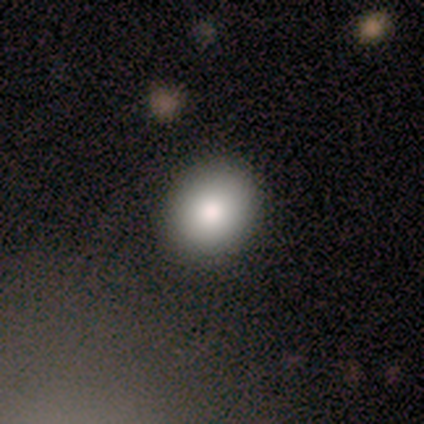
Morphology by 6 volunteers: This appears to be a smooth galaxy with no disk features (67%) that is round (50%, tied with in between). Merging: none (100%).